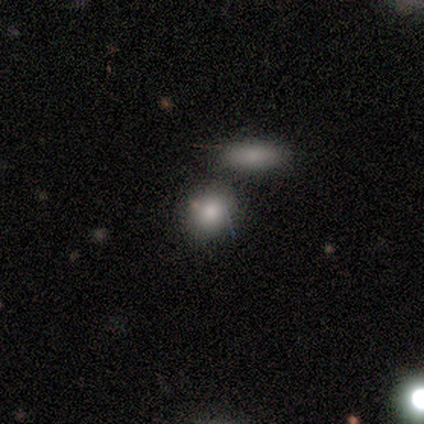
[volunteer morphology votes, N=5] Smooth or featured?
  - smooth: 60% *
  - featured or disk: 20%
  - star or artifact: 20%
How rounded?
  - round: 67% *
  - in between: 33%
  - cigar-shaped: 0%
Merging?
  - none: 75% *
  - merger: 25%
  - minor disturbance: 0%
  - major disturbance: 0%